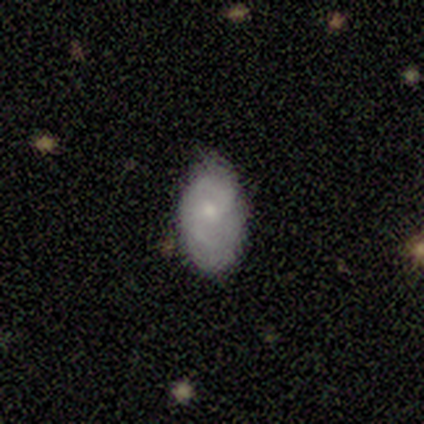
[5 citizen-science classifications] A featured or disk galaxy (60%) with no bar (67%), 1 (50%, tied with 2) loose (100%) spiral arms (67%) and a small central bulge (100%).

Vote fractions:
- Smooth or featured? featured or disk: 60% / smooth: 40% / star or artifact: 0%
- Edge-on disk? no: 100% / yes: 0%
- Bar? no: 67% / weak: 33% / strong: 0%
- Spiral arms? yes: 67% / no: 33%
- Spiral winding? loose: 100% / tight: 0% / medium: 0%
- Spiral arm count? 1: 50% (tied) / 2: 50% (tied) / 3: 0% / 4: 0% / more than 4: 0% / can't tell: 0%
- Bulge size? small: 100% / dominant: 0% / large: 0% / moderate: 0% / none: 0%
- Merging? none: 100% / minor disturbance: 0% / major disturbance: 0% / merger: 0%